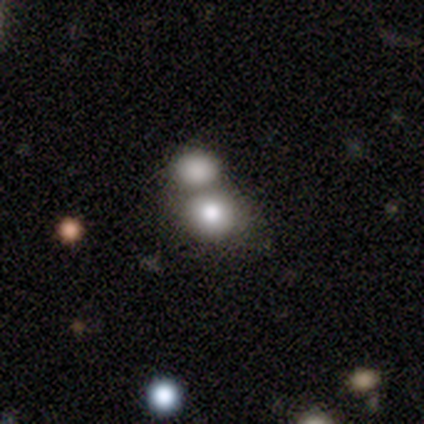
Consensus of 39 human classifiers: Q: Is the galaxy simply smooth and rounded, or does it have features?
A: smooth — 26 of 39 (67%).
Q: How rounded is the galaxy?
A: round — 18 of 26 (69%).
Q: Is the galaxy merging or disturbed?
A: merger — 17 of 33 (52%).